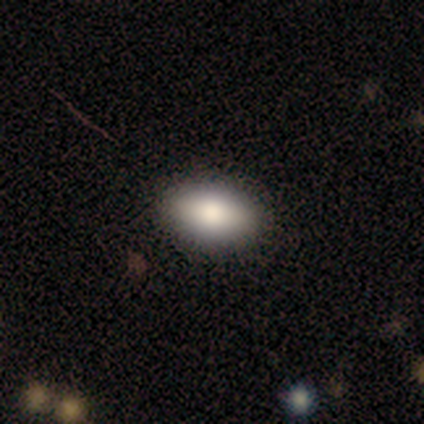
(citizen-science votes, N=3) Q: Smooth or featured?
A: smooth (67%); runner-up: featured or disk (33%)
Q: How rounded?
A: in between (100%)
Q: Merging?
A: none (67%); runner-up: minor disturbance (33%)